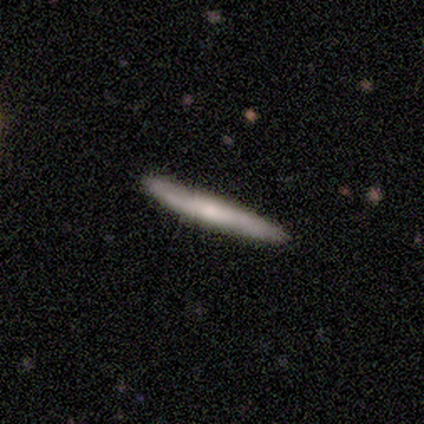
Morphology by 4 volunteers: A smooth galaxy with no disk features (75%) that is cigar-shaped (100%). Merging: none (100%).